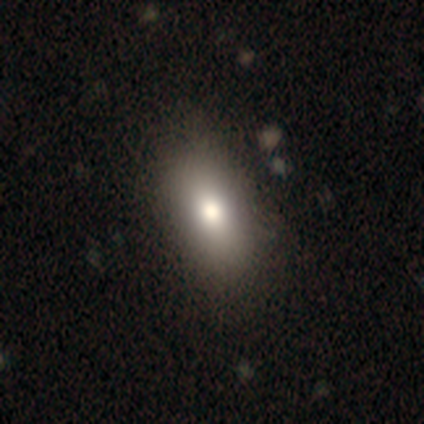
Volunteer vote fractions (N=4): smooth-or-featured: smooth: 50% (tied) | star or artifact: 50% (tied) | featured or disk: 0%
  how-rounded: in between: 100% | round: 0% | cigar-shaped: 0%
  merging: none: 100% | minor disturbance: 0% | major disturbance: 0% | merger: 0%